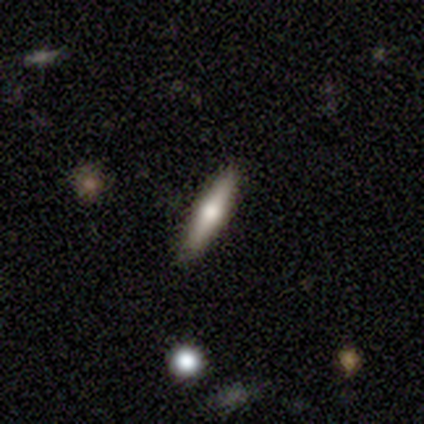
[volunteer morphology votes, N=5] Smooth or featured? 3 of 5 (60%) said smooth. How rounded? 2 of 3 (67%) said in between. Merging? 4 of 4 (100%) said none.